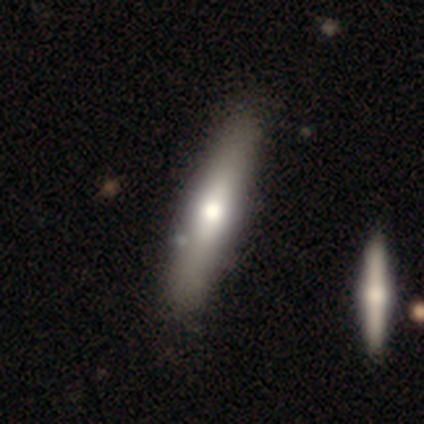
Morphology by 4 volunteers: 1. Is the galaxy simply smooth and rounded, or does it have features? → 75% smooth, 25% featured or disk, 0% star or artifact.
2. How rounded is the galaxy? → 100% cigar-shaped, 0% round, 0% in between.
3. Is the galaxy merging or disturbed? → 100% none, 0% minor disturbance, 0% major disturbance, 0% merger.